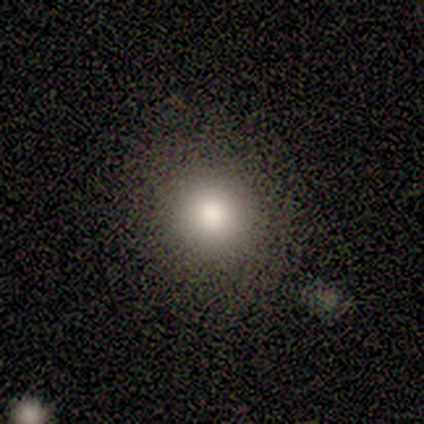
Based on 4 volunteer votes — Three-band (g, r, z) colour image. It shows a smooth galaxy with no disk features (75%) that is round (100%). Merging: none (100%).